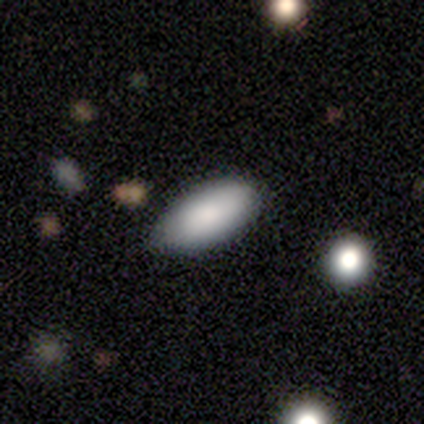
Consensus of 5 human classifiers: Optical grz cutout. It shows a smooth galaxy with no disk features (100%) that is in between round and cigar-shaped (80%). Merging: none (100%).